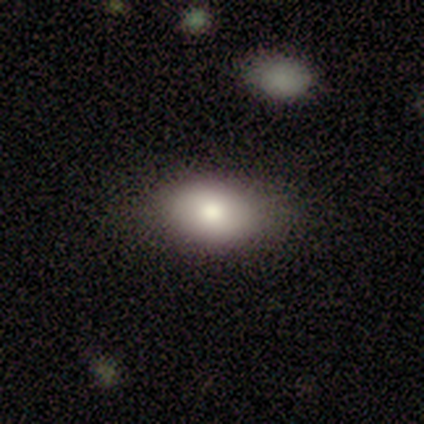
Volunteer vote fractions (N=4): smooth 100%, featured or disk 0%, star or artifact 0%. Down the decision tree: how rounded — in between (100%); merging — none (100%).